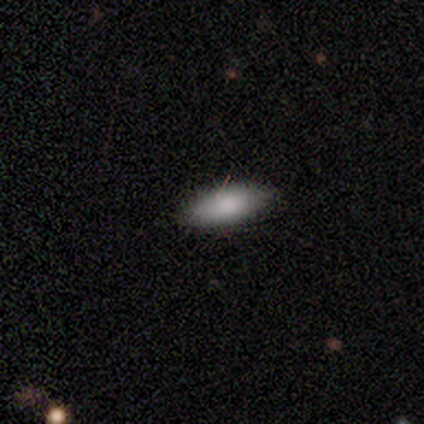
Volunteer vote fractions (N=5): This appears to be a smooth galaxy with no disk features (100%) that is in between round and cigar-shaped (80%). Merging: none (40%, tied with minor disturbance).